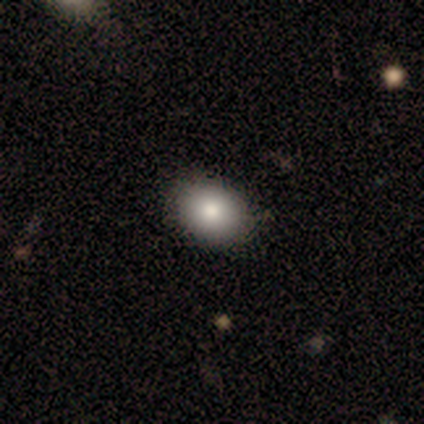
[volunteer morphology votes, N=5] smooth_or_featured: smooth (p=1.00)
how_rounded: in between (p=0.80) [alt: round p=0.20]
merging: none (p=0.80) [alt: minor disturbance p=0.20]